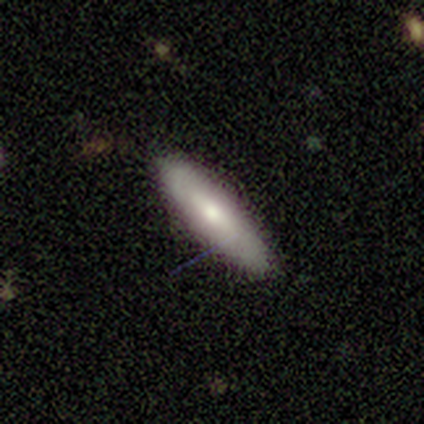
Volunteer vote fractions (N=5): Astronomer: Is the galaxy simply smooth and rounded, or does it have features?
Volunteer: smooth — 60% (runner-up: featured or disk, 40%).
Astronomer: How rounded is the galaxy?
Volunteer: cigar-shaped — 100%.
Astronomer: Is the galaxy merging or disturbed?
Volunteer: none — 100%.